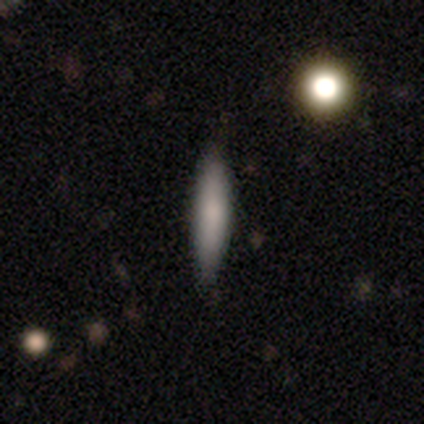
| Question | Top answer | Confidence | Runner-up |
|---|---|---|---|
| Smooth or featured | smooth | 75% | featured or disk (25%) |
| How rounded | cigar-shaped | 100% | — |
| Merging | none | 100% | — |